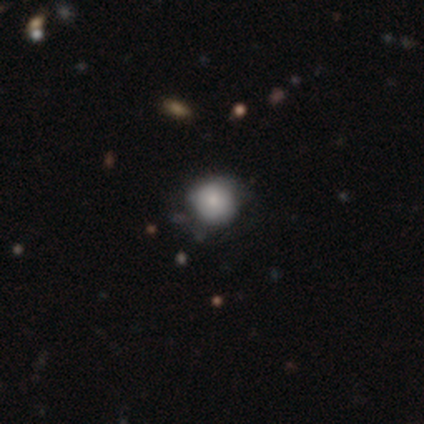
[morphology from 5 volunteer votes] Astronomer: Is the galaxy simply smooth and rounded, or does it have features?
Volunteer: smooth — 100%.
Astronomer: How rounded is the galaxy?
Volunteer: round — 100%.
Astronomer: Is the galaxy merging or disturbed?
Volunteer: none — 60% (runner-up: minor disturbance, 40%).